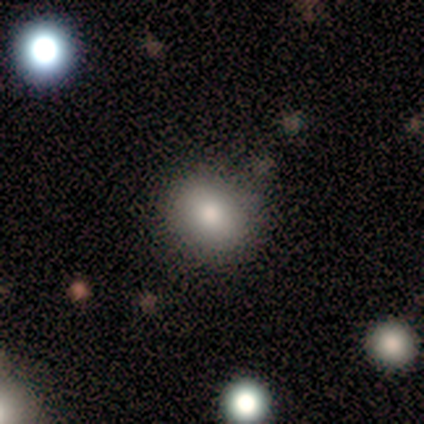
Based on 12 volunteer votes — This appears to be a smooth galaxy with no disk features (67%) that is round (50%, tied with in between). Merging: minor disturbance (60%).